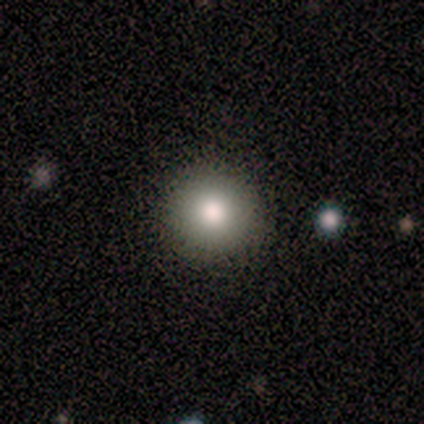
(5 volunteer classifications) smooth-or-featured: smooth: 80% | star or artifact: 20% | featured or disk: 0%
  how-rounded: round: 100% | in between: 0% | cigar-shaped: 0%
  merging: none: 75% | minor disturbance: 25% | major disturbance: 0% | merger: 0%